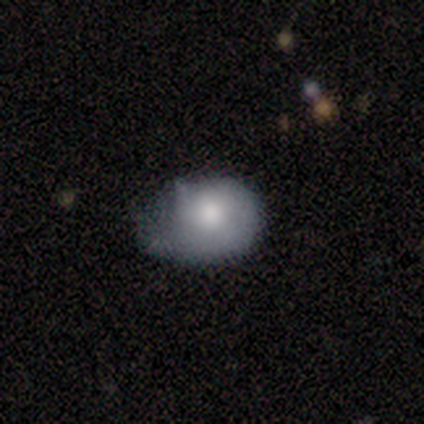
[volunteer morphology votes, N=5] Smooth or featured? smooth (80%)
How rounded? round (75%)
Merging? none (40%, tied with minor disturbance)